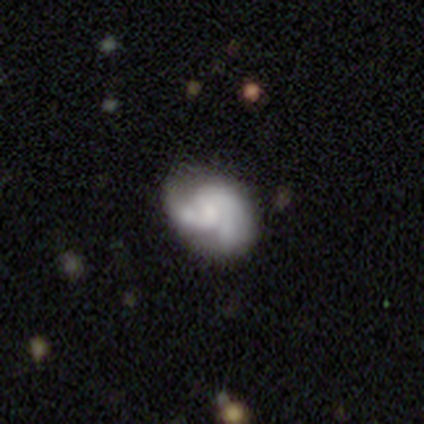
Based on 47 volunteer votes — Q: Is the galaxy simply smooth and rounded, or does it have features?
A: featured or disk — 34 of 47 (72%).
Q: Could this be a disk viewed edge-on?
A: no — 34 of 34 (100%).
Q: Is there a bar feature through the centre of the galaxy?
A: no — 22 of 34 (65%).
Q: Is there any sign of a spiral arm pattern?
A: yes — 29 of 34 (85%).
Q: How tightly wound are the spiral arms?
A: medium — 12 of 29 (41%).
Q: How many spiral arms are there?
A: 2 — 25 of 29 (86%).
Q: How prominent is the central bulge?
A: none — 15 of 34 (44%).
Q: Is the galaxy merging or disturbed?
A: none — 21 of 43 (49%).